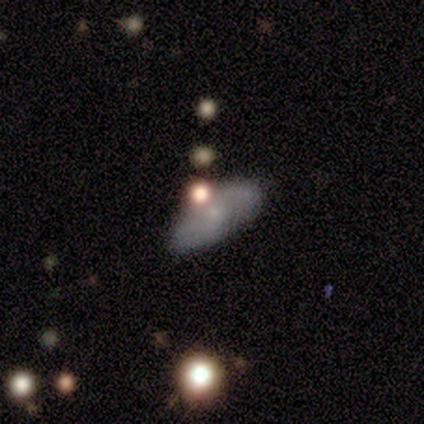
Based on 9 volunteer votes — Volunteers were most divided on "merging": none: 44%, minor disturbance: 33%, major disturbance: 11%, merger: 11%. More confident: how rounded — in between (80%); smooth or featured — smooth (56%).